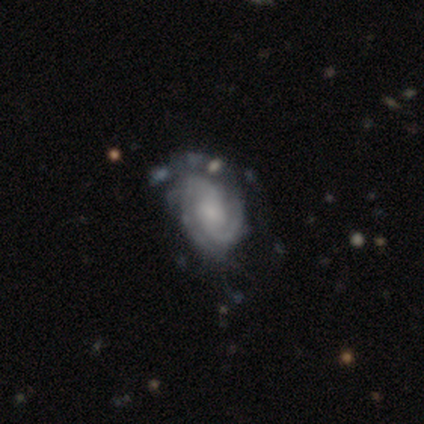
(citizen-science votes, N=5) This appears to be a featured or disk galaxy (80%) with a weak bar (75%), 2 (75%) medium (75%) spiral arms (100%) and a small central bulge (75%). Merging: major disturbance (75%).